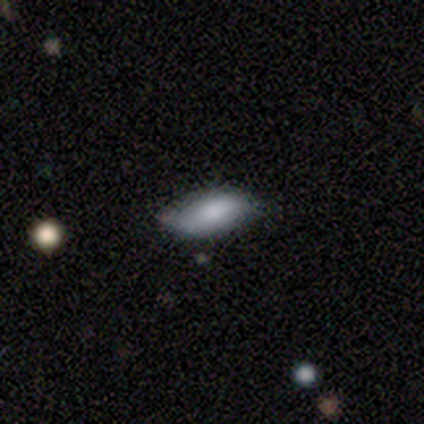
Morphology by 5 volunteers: smooth-or-featured: smooth: 100% | featured or disk: 0% | star or artifact: 0%
  how-rounded: in between: 100% | round: 0% | cigar-shaped: 0%
  merging: none: 60% | minor disturbance: 40% | major disturbance: 0% | merger: 0%